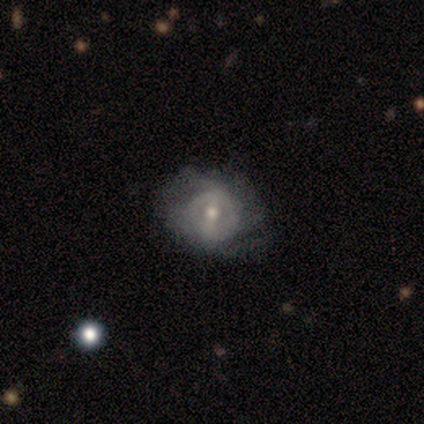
smooth-or-featured: featured or disk: 55% | smooth: 39% | star or artifact: 5%
  disk-edge-on: no: 100% | yes: 0%
    bar: weak: 52% | no: 29% | strong: 19%
    has-spiral-arms: no: 62% | yes: 38%
    bulge-size: moderate: 57% | small: 43% | dominant: 0% | large: 0% | none: 0%
  merging: none: 58% | minor disturbance: 22% | major disturbance: 14% | merger: 6%